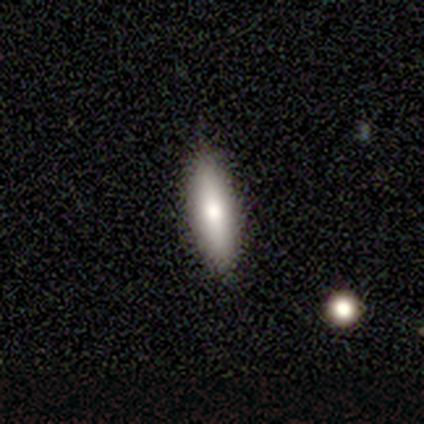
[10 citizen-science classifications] Smooth or featured?
  - smooth: 80% *
  - featured or disk: 10%
  - star or artifact: 10%
How rounded?
  - in between: 50% * (tied)
  - cigar-shaped: 50% * (tied)
  - round: 0%
Merging?
  - none: 89% *
  - minor disturbance: 11%
  - major disturbance: 0%
  - merger: 0%